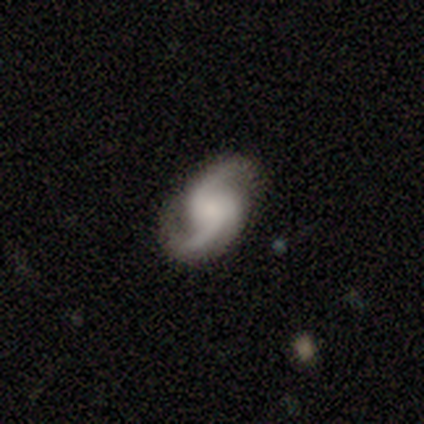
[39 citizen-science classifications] A featured or disk galaxy (92%) with no bar (63%), 2 (94%) loose (53%) spiral arms (91%) and no central bulge (34%).

Vote fractions:
- Smooth or featured? featured or disk: 92% / star or artifact: 5% / smooth: 3%
- Edge-on disk? no: 97% / yes: 3%
- Bar? no: 63% / weak: 31% / strong: 6%
- Spiral arms? yes: 91% / no: 9%
- Spiral winding? loose: 53% / medium: 31% / tight: 16%
- Spiral arm count? 2: 94% / 3: 6% / 1: 0% / 4: 0% / more than 4: 0% / can't tell: 0%
- Bulge size? none: 34% / small: 29% / moderate: 26% / large: 11% / dominant: 0%
- Merging? none: 68% / minor disturbance: 22% / major disturbance: 8% / merger: 3%